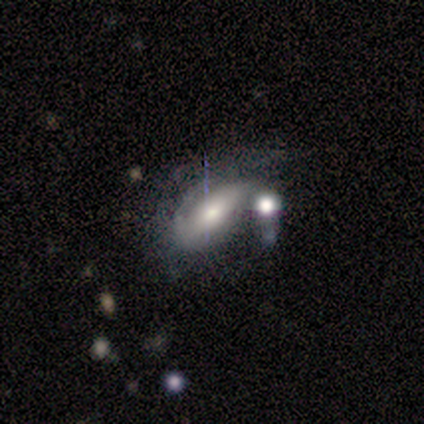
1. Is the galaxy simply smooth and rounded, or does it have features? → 50% smooth (tied), 50% featured or disk (tied), 0% star or artifact.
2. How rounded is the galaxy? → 100% round, 0% in between, 0% cigar-shaped.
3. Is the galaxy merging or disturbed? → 100% merger, 0% none, 0% minor disturbance, 0% major disturbance.